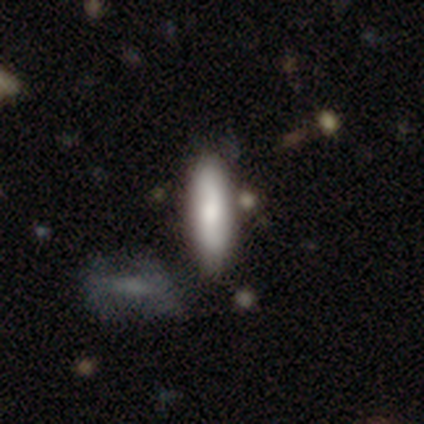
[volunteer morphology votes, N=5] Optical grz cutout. It shows a smooth galaxy with no disk features (60%) that is in between round and cigar-shaped (67%). Merging: none (80%).